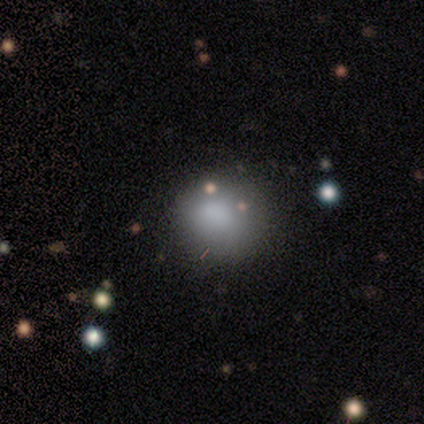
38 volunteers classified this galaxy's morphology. This appears to be a smooth galaxy with no disk features (68%) that is round (88%). Merging: none (90%).